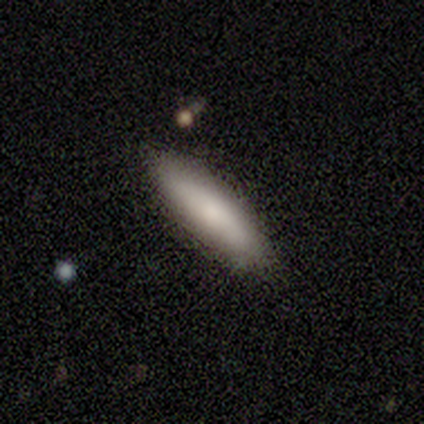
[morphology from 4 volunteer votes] A smooth galaxy with no disk features (75%) that is cigar-shaped (67%).

Vote fractions:
- Smooth or featured? smooth: 75% / featured or disk: 25% / star or artifact: 0%
- How rounded? cigar-shaped: 67% / in between: 33% / round: 0%
- Merging? none: 75% / merger: 25% / minor disturbance: 0% / major disturbance: 0%